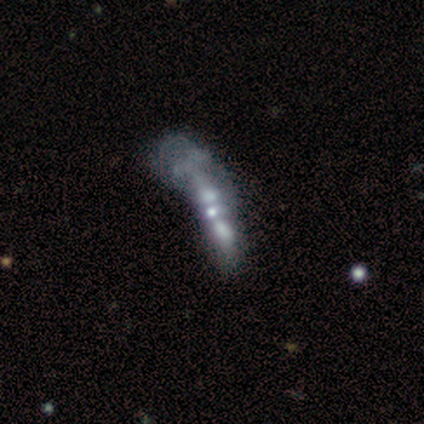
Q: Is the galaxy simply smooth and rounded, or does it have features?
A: featured or disk — 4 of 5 (80%).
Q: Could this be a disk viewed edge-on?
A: no — 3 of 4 (75%).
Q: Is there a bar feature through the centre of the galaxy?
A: no — 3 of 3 (100%).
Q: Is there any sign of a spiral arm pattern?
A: no — 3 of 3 (100%).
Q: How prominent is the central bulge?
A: small — 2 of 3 (67%).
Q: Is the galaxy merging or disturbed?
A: major disturbance — 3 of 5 (60%).